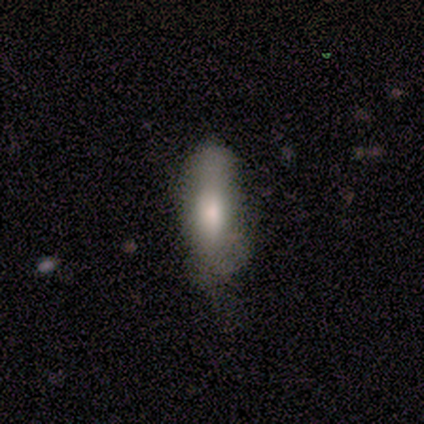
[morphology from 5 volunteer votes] Q: Smooth or featured?
A: smooth (100%)
Q: How rounded?
A: cigar-shaped (60%); runner-up: in between (40%)
Q: Merging?
A: none (60%); runner-up: minor disturbance (20%)